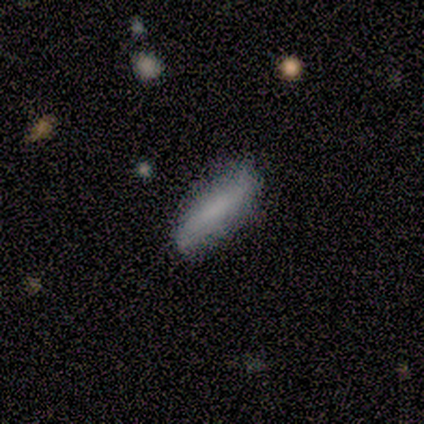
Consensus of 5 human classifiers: Morphology: type=smooth (80%); roundness=cigar-shaped (100%); merging=none (100%).